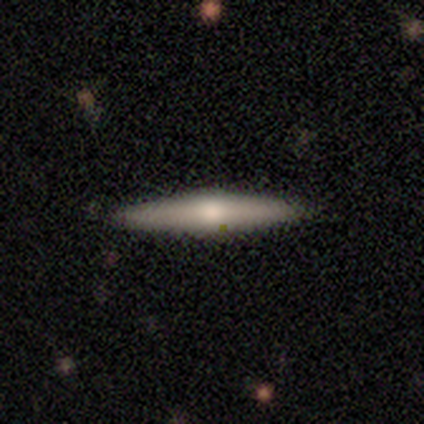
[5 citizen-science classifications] Smooth or featured: featured or disk — 80% (smooth — 20%)
Edge-on disk: yes — 75% (no — 25%)
Edge-on bulge: rounded — 67% (none — 33%)
Merging: none — 100%